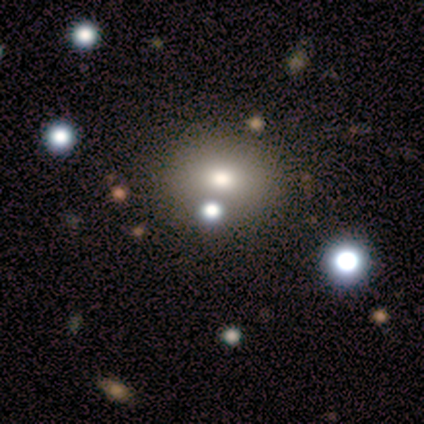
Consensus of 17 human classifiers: This is likely a smooth galaxy (76%). How rounded: possibly in between (54%). Merging: clearly none (100%).